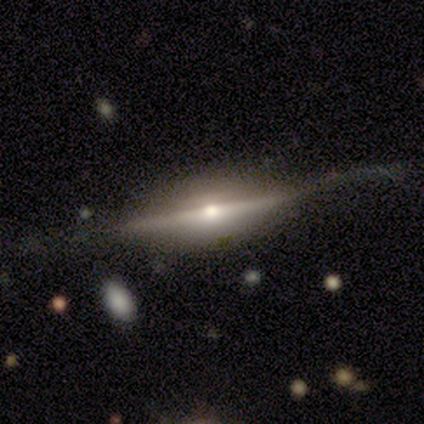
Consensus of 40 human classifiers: featured or disk 98%, smooth 2%, star or artifact 0%. Down the decision tree: edge-on disk — yes (92%); edge-on bulge — rounded (94%); merging — none (65%).